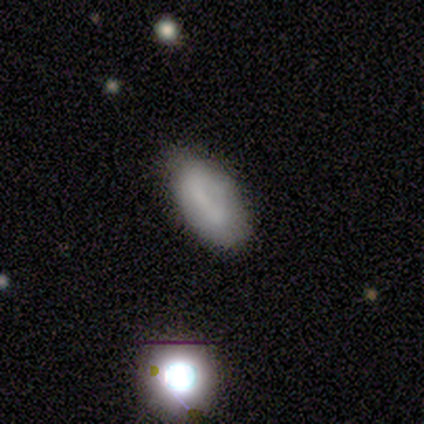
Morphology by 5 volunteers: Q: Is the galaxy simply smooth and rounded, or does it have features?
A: smooth — 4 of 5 (80%).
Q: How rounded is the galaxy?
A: in between — 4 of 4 (100%).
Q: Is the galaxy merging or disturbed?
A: none — 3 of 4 (75%).